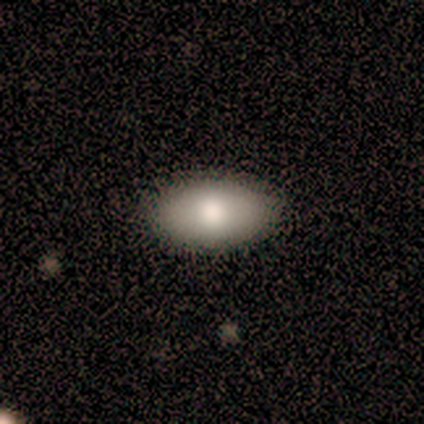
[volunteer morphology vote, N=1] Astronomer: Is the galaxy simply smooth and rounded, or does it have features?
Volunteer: smooth — 100%.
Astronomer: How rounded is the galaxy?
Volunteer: in between — 100%.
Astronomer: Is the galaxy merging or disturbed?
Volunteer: none — 100%.